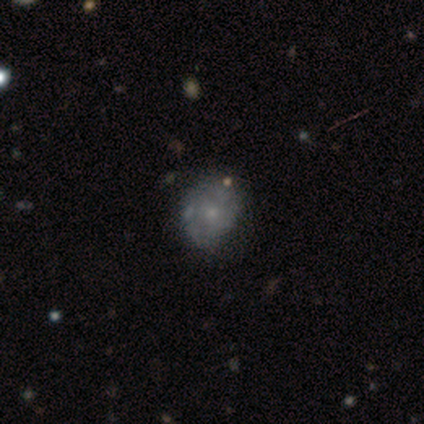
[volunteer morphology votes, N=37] A smooth galaxy with no disk features (46%, tied with featured or disk) that is round (53%).

Vote fractions:
- Smooth or featured? smooth: 46% (tied) / featured or disk: 46% (tied) / star or artifact: 8%
- How rounded? round: 53% / in between: 41% / cigar-shaped: 6%
- Merging? none: 74% / minor disturbance: 21% / major disturbance: 6% / merger: 0%